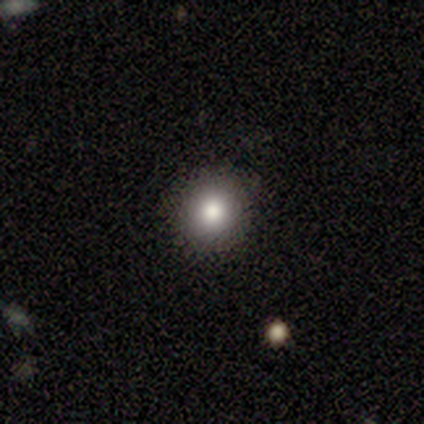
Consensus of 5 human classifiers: This is likely a smooth galaxy (60%). How rounded: clearly round (100%). Merging: clearly none (100%).